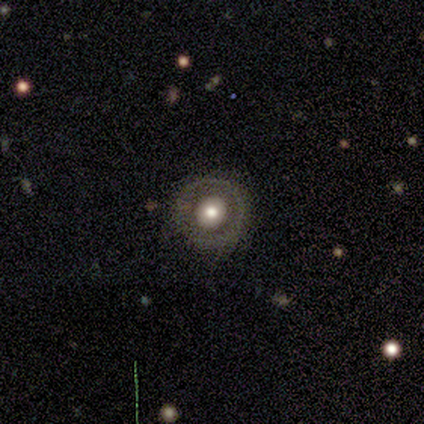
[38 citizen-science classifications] Smooth or featured? smooth (50%)
How rounded? round (95%)
Merging? none (73%)